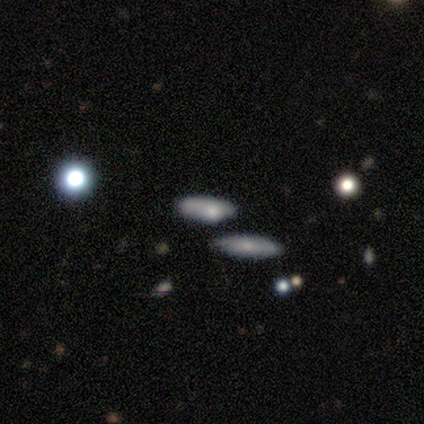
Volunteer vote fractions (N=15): Smooth or featured? 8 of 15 (53%) said smooth. How rounded? 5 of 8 (62%) said in between. Merging? 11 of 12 (92%) said none.